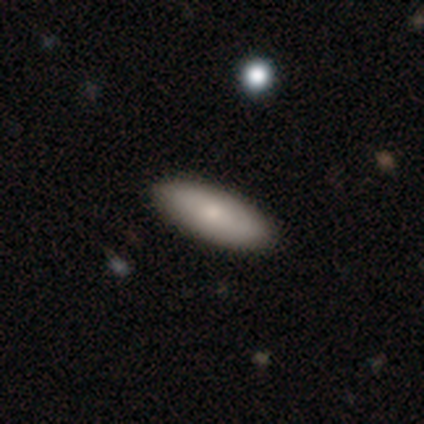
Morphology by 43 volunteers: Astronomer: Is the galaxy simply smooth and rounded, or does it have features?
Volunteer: smooth — 84%.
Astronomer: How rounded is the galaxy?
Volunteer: in between — 67%.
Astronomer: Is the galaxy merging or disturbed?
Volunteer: none — 88%.